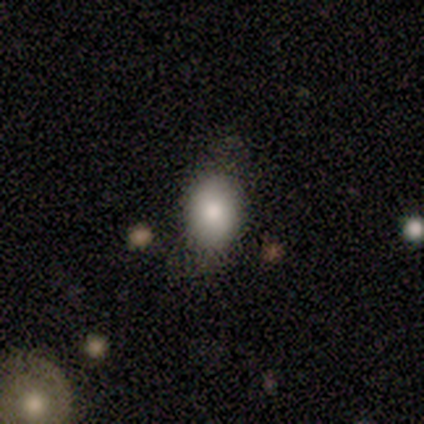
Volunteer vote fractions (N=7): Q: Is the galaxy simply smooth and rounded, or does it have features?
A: smooth — 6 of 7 (86%).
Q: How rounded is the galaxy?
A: in between — 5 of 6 (83%).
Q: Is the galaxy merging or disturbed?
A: none — 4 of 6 (67%).